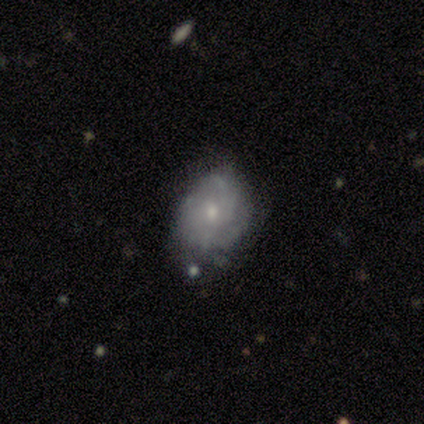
A featured or disk galaxy (83%) with no bar (100%), medium (50%) spiral arms (80%) and a small central bulge (60%). Merging: none (83%).